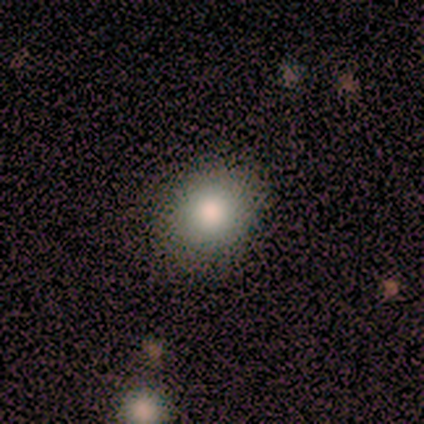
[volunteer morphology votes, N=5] This is clearly a smooth galaxy (80%). How rounded: likely in between (75%). Merging: clearly none (100%).